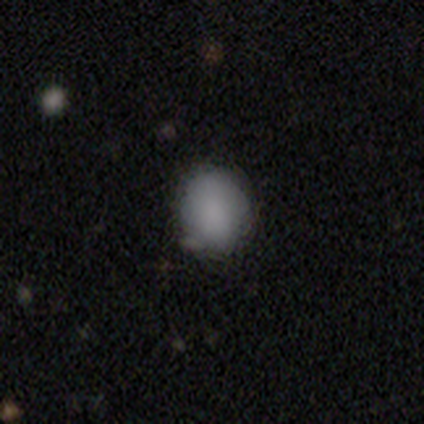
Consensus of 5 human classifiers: Smooth or featured? smooth (100%)
How rounded? round (60%)
Merging? none (60%)